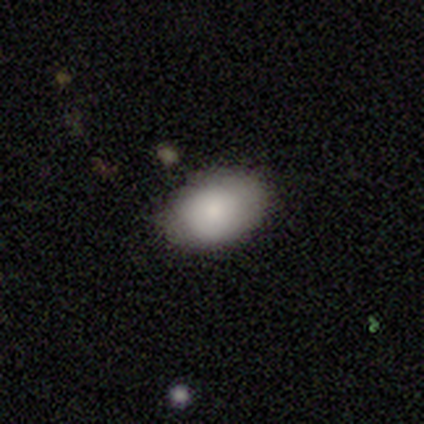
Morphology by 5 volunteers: This is clearly a smooth galaxy (80%). How rounded: possibly round (50%, tied with in between). Merging: clearly none (100%).